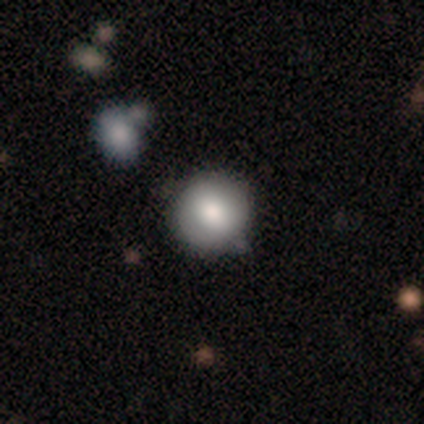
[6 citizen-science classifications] Smooth or featured: smooth — 100%
How rounded: round — 100%
Merging: none — 67% (minor disturbance — 33%)